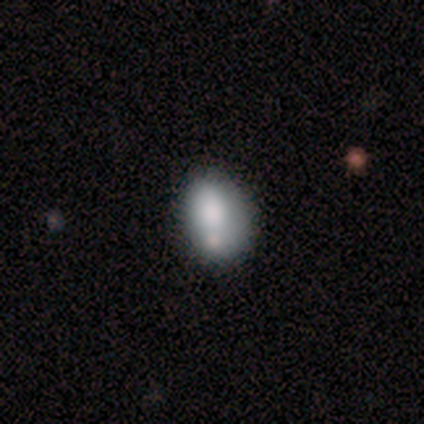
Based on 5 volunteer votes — A smooth galaxy with no disk features (80%) that is round (50%, tied with in between). Merging: none (75%).